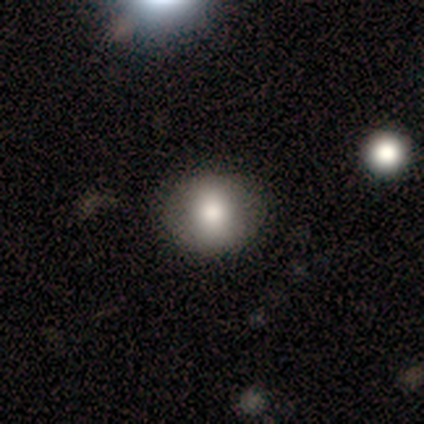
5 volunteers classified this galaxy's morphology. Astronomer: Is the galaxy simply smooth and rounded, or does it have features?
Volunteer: smooth — 80%.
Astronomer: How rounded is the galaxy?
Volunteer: round — 75%.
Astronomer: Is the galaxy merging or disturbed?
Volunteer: none — 100%.